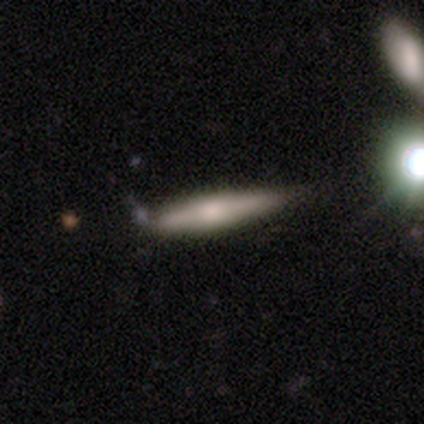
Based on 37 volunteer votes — A featured or disk galaxy (51%) viewed edge-on (95%) with a rounded central bulge (72%). Merging: none (60%).